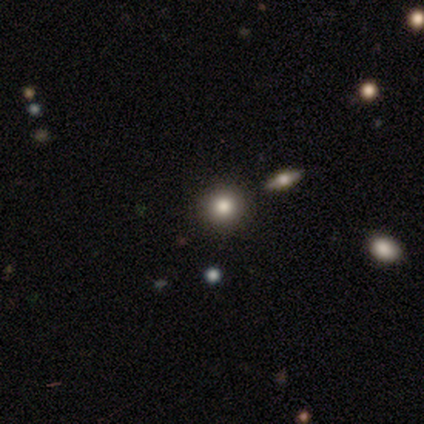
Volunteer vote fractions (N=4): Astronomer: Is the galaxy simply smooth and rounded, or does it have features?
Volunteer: smooth — 100%.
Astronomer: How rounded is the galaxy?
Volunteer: round — 100%.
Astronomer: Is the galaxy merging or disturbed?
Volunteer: none — 75%.